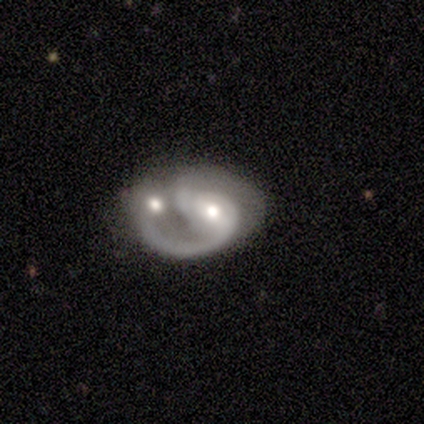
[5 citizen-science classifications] A featured or disk galaxy (60%) with a weak bar (67%), 2 (100%) loose (67%) spiral arms (100%) and a moderate central bulge (67%).

Vote fractions:
- Smooth or featured? featured or disk: 60% / smooth: 40% / star or artifact: 0%
- Edge-on disk? no: 100% / yes: 0%
- Bar? weak: 67% / no: 33% / strong: 0%
- Spiral arms? yes: 100% / no: 0%
- Spiral winding? loose: 67% / medium: 33% / tight: 0%
- Spiral arm count? 2: 100% / 1: 0% / 3: 0% / 4: 0% / more than 4: 0% / can't tell: 0%
- Bulge size? moderate: 67% / large: 33% / dominant: 0% / small: 0% / none: 0%
- Merging? merger: 80% / minor disturbance: 20% / none: 0% / major disturbance: 0%